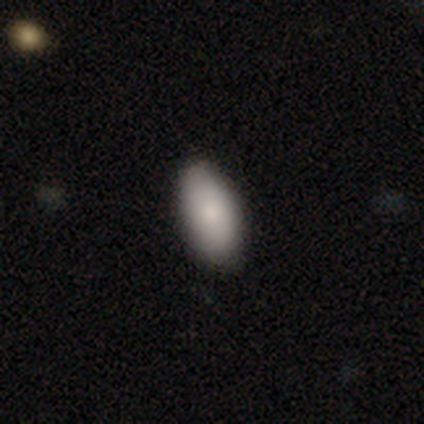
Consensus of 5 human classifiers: Smooth or featured? smooth (60%)
How rounded? in between (100%)
Merging? none (100%)